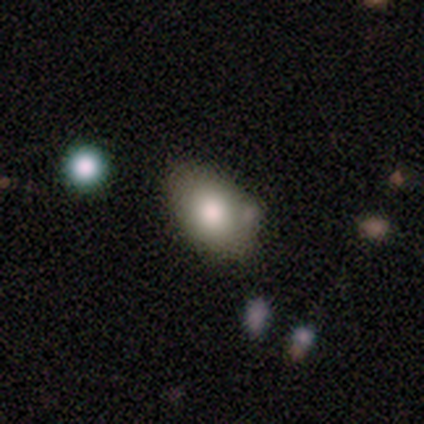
smooth 82%, featured or disk 18%, star or artifact 0%. Down the decision tree: how rounded — in between (94%); merging — none (52%).